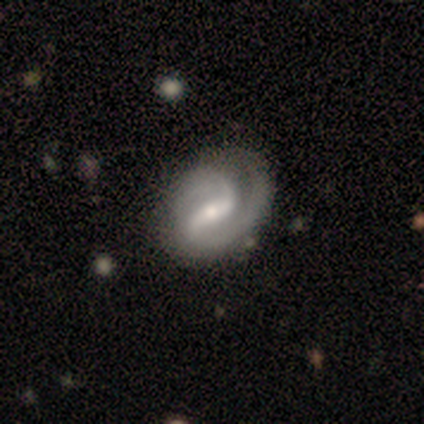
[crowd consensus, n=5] This appears to be a featured or disk galaxy (80%) with a strong bar (75%), 2 (75%) tight (100%) spiral arms (100%) and a moderate central bulge (100%). Merging: none (40%, tied with minor disturbance).